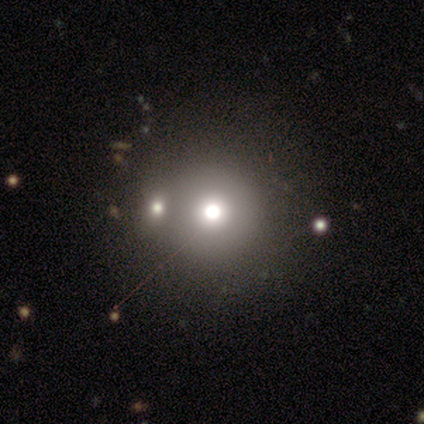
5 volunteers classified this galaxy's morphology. This is marginally a smooth galaxy (40%, tied with star or artifact). How rounded: clearly round (100%). Merging: clearly none (100%).